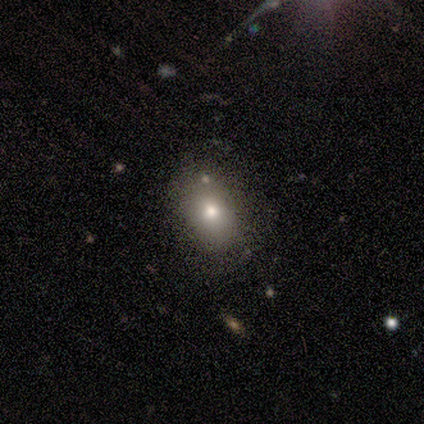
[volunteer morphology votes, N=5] Overall: smooth (80%). How rounded: in between (100%). Merging: none (100%).